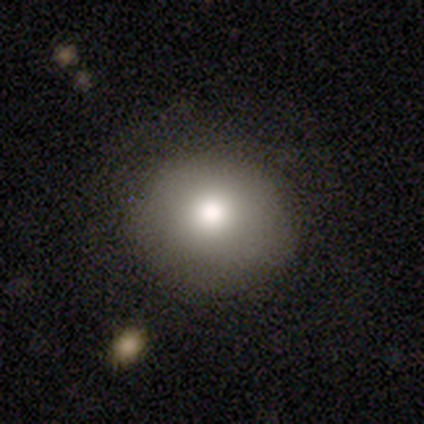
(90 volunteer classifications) Smooth or featured? smooth (76%)
How rounded? round (85%)
Merging? none (90%)